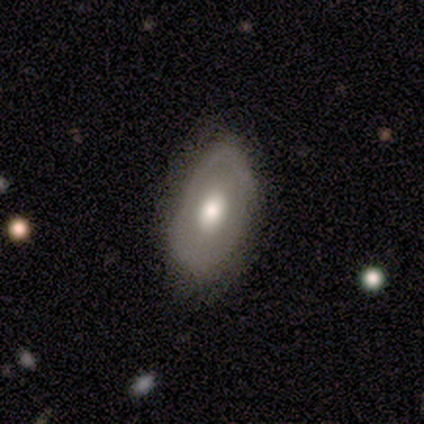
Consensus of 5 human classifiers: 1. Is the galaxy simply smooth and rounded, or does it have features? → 80% smooth, 20% featured or disk, 0% star or artifact.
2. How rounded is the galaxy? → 75% in between, 25% round, 0% cigar-shaped.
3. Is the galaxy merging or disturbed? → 60% minor disturbance, 40% none, 0% major disturbance, 0% merger.